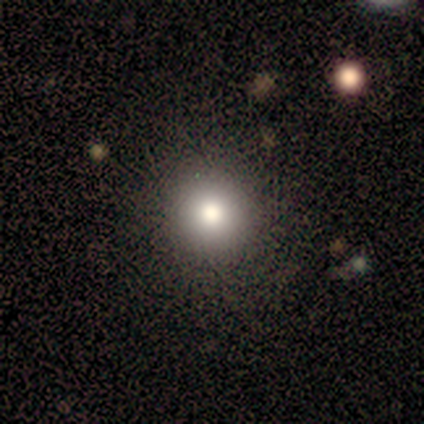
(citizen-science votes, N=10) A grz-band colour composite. It shows a smooth galaxy with no disk features (70%) that is round (100%). Merging: none (89%).